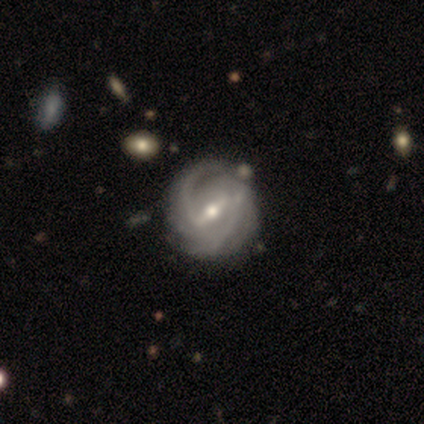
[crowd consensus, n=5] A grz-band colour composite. It shows a featured or disk galaxy (100%) with a strong bar (60%), 2 (80%) medium (60%) spiral arms (100%) and a small central bulge (60%). Merging: none (40%, tied with minor disturbance).